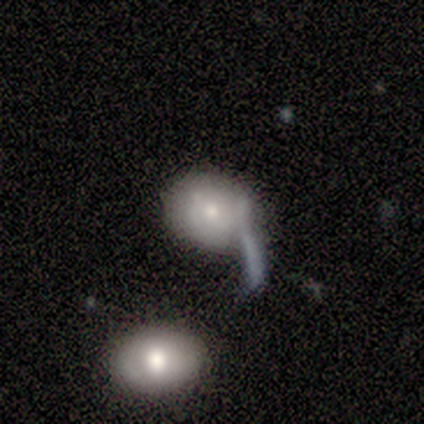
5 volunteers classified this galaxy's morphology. Q: Smooth or featured?
A: featured or disk (60%); runner-up: smooth (40%)
Q: Edge-on disk?
A: no (100%)
Q: Bar?
A: no (100%)
Q: Spiral arms?
A: yes (67%); runner-up: no (33%)
Q: Spiral winding?
A: tight (50%); tied with: medium (50%)
Q: Spiral arm count?
A: 2 (100%)
Q: Bulge size?
A: moderate (100%)
Q: Merging?
A: major disturbance (40%); tied with: merger (40%)